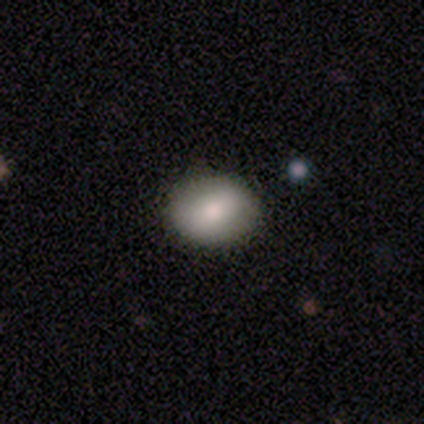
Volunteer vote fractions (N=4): smooth 100%, featured or disk 0%, star or artifact 0%. Down the decision tree: how rounded — round (50%, tied with in between); merging — none (100%).